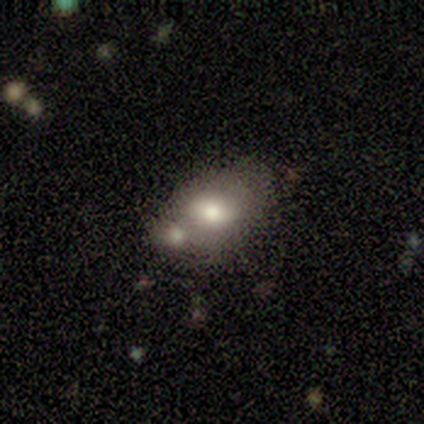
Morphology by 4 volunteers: smooth 75%, featured or disk 25%, star or artifact 0%. Down the decision tree: how rounded — in between (67%); merging — minor disturbance (50%).